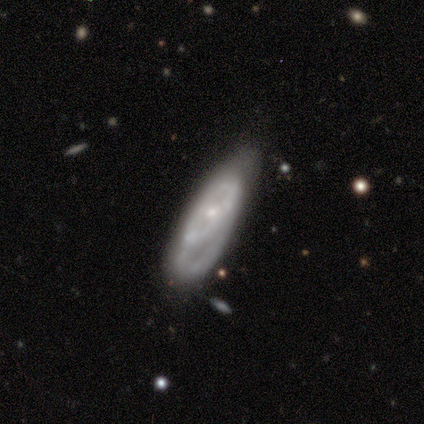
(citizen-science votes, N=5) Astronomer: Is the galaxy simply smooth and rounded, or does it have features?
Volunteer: featured or disk — 60% (runner-up: smooth, 40%).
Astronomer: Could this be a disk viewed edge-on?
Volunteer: no — 100%.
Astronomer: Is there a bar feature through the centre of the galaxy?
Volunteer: no — 100%.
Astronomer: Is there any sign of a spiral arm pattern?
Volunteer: no — 67%.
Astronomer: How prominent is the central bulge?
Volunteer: small — 67%.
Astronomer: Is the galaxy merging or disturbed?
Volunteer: none — 60%.